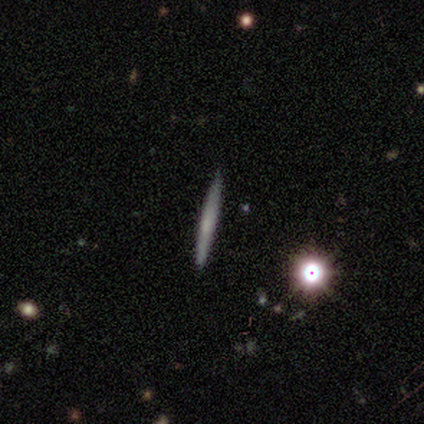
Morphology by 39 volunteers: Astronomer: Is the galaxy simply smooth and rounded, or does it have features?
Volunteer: featured or disk — 54% (runner-up: smooth, 38%).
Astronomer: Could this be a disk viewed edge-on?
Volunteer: yes — 100%.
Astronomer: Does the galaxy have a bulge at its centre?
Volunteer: none — 62%.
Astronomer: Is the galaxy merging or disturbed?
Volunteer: none — 92%.